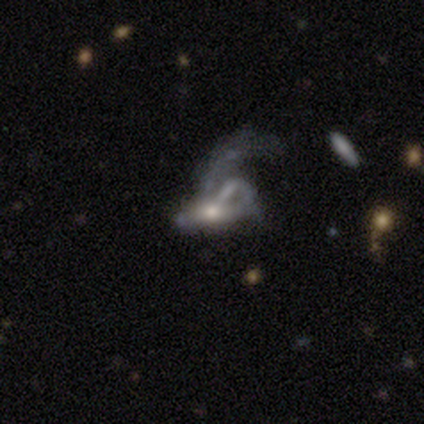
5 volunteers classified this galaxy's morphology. Smooth or featured? 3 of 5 (60%) said featured or disk. Edge-on disk? 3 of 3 (100%) said no. Bar? 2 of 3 (67%) said no. Spiral arms? 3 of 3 (100%) said no. Bulge size? 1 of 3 (33%, tied with moderate and small) said large. Merging? 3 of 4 (75%) said major disturbance.